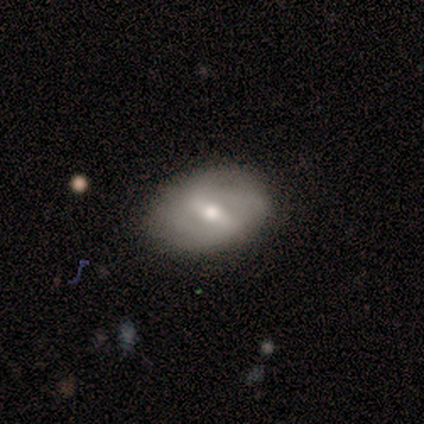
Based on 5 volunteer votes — Volunteers were most divided on "smooth or featured": smooth: 60%, featured or disk: 40%, star or artifact: 0%. More confident: how rounded — in between (67%); merging — none (60%).